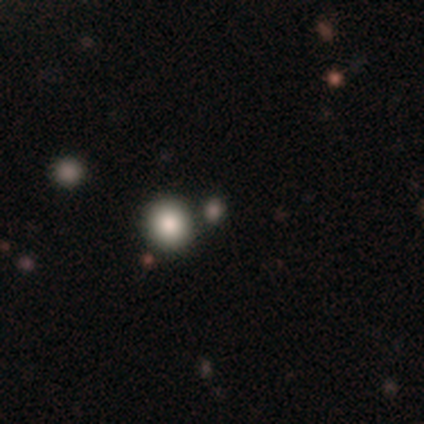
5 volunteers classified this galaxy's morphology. type=smooth (60%); roundness=round (67%); merging=none (75%).